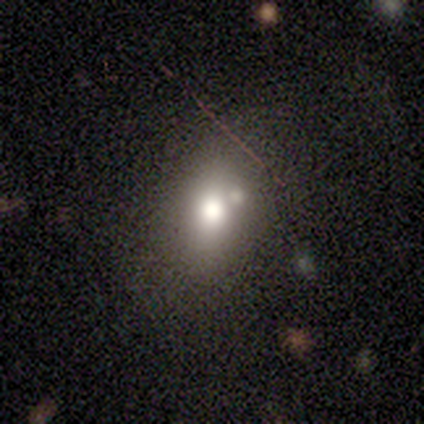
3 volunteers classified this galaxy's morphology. This appears to be a smooth galaxy with no disk features (67%) that is in between round and cigar-shaped (50%, tied with cigar-shaped). Merging: none (100%).